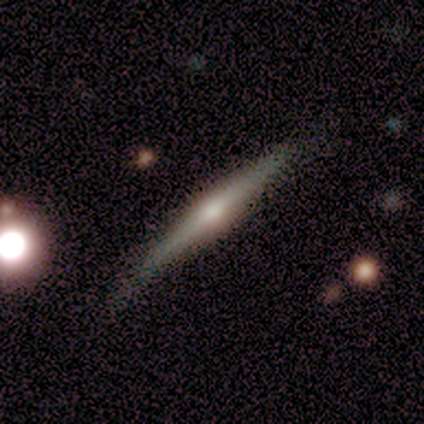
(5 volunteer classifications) Overall: featured or disk (100%). Edge-on disk: yes (100%). Edge-on bulge: rounded (80%). Merging: none (100%).